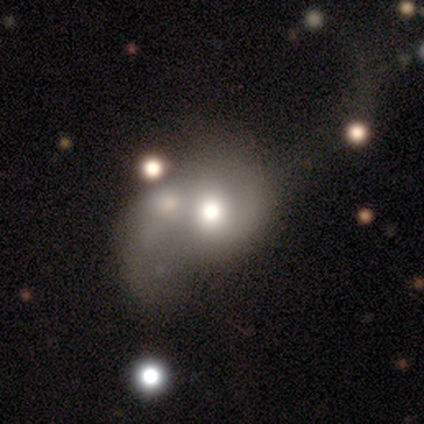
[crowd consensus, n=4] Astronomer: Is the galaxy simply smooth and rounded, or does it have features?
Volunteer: featured or disk — 75%.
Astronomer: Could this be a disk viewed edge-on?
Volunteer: no — 100%.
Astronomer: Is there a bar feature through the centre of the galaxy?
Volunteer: no — 67%.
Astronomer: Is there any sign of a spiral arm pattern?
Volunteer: yes — 67%.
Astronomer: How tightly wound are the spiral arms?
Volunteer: medium — 100%.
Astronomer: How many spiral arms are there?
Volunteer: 2 — 100%.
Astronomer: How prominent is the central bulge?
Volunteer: large — 67%.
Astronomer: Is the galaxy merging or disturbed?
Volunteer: minor disturbance — 50%, tied with major disturbance at 50%.